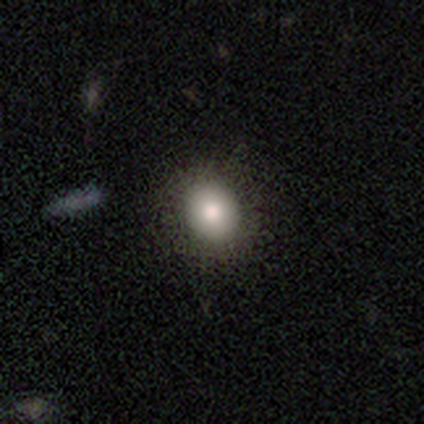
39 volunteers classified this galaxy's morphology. Q: Smooth or featured?
A: smooth (82%); runner-up: featured or disk (13%)
Q: How rounded?
A: round (75%); runner-up: in between (25%)
Q: Merging?
A: none (59%); runner-up: minor disturbance (3%)